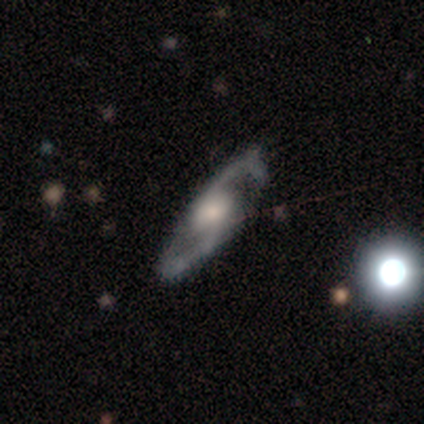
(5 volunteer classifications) A featured or disk galaxy (100%) with a weak bar (50%, tied with no), 2 (100%) loose (67%) spiral arms (75%) and a moderate central bulge (50%).

Vote fractions:
- Smooth or featured? featured or disk: 100% / smooth: 0% / star or artifact: 0%
- Edge-on disk? no: 80% / yes: 20%
- Bar? weak: 50% (tied) / no: 50% (tied) / strong: 0%
- Spiral arms? yes: 75% / no: 25%
- Spiral winding? loose: 67% / medium: 33% / tight: 0%
- Spiral arm count? 2: 100% / 1: 0% / 3: 0% / 4: 0% / more than 4: 0% / can't tell: 0%
- Bulge size? moderate: 50% / large: 25% / small: 25% / dominant: 0% / none: 0%
- Merging? none: 60% / minor disturbance: 20% / major disturbance: 20% / merger: 0%